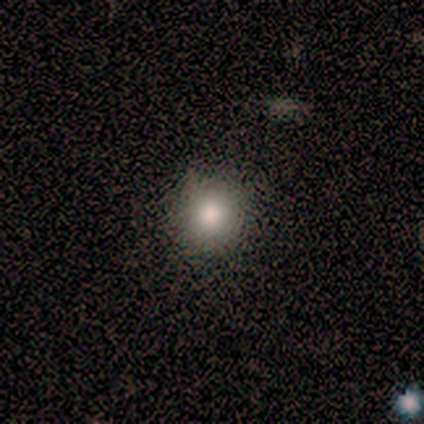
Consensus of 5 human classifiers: A smooth galaxy with no disk features (100%) that is round (80%). Merging: none (80%).